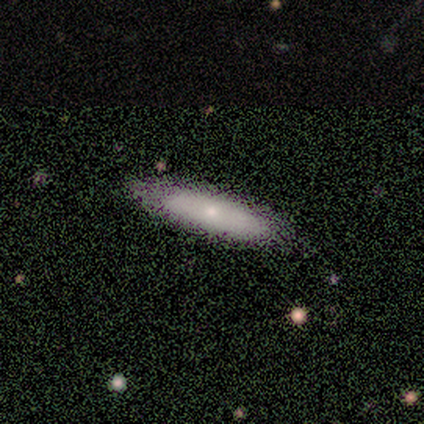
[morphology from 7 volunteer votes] Smooth or featured? 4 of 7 (57%) said smooth. How rounded? 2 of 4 (50%, tied with cigar-shaped) said in between. Merging? 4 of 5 (80%) said none.